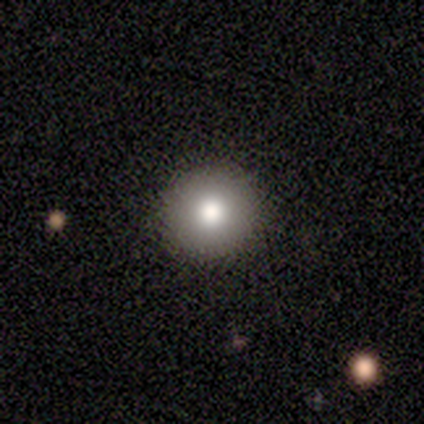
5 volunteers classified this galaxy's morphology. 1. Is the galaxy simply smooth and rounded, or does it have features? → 80% smooth, 20% featured or disk, 0% star or artifact.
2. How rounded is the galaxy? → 100% round, 0% in between, 0% cigar-shaped.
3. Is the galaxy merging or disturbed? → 100% none, 0% minor disturbance, 0% major disturbance, 0% merger.